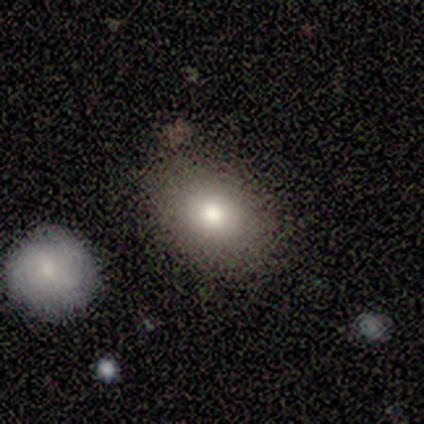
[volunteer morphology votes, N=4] This appears to be a smooth galaxy with no disk features (50%, tied with featured or disk) that is in between round and cigar-shaped (100%). Merging: none (75%).